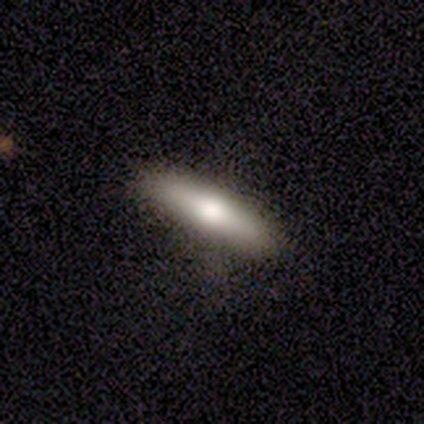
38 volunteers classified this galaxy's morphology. Smooth or featured? 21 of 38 (55%) said smooth. How rounded? 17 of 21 (81%) said cigar-shaped. Merging? 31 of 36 (86%) said none.